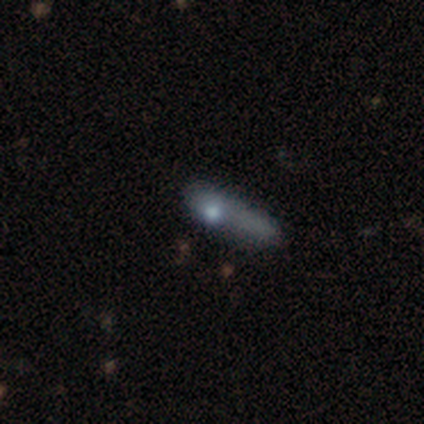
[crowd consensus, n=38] Morphology: type=smooth (47%); roundness=cigar-shaped (67%); merging=minor disturbance (44%).